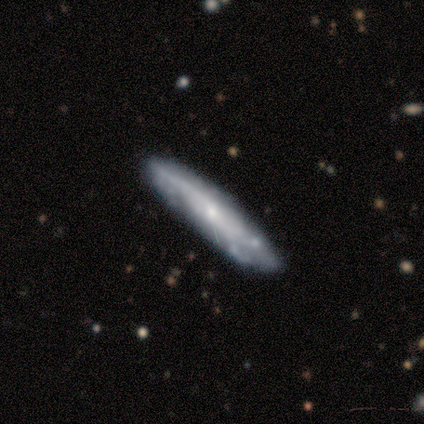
Overall: smooth (50%, tied with featured or disk). How rounded: in between (50%, tied with cigar-shaped). Merging: none (100%).